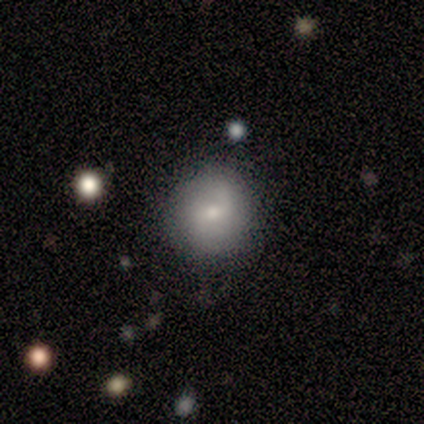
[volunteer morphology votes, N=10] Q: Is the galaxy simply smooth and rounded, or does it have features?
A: smooth — 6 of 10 (60%).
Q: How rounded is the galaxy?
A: round — 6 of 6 (100%).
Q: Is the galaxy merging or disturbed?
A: none — 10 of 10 (100%).